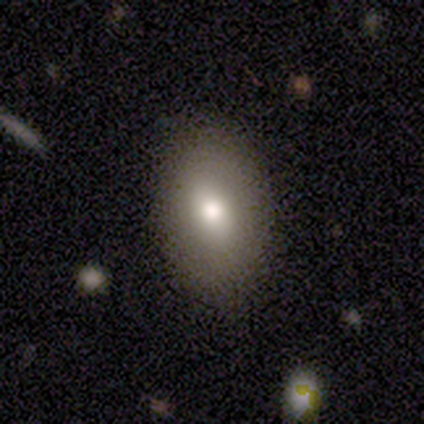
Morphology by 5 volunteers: Smooth or featured?
  - smooth: 80% *
  - featured or disk: 20%
  - star or artifact: 0%
How rounded?
  - in between: 100% *
  - round: 0%
  - cigar-shaped: 0%
Merging?
  - none: 100% *
  - minor disturbance: 0%
  - major disturbance: 0%
  - merger: 0%